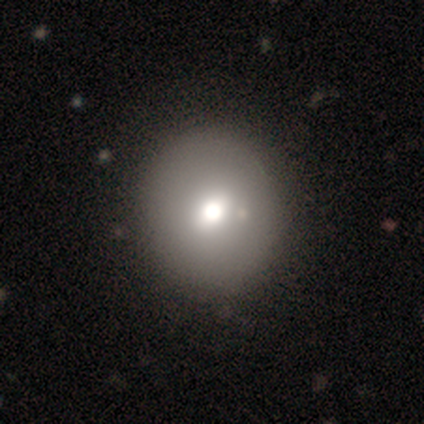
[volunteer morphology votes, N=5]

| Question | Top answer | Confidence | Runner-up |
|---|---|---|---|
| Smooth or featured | smooth | 80% | featured or disk (20%) |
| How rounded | round | 100% | — |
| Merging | none | 100% | — |